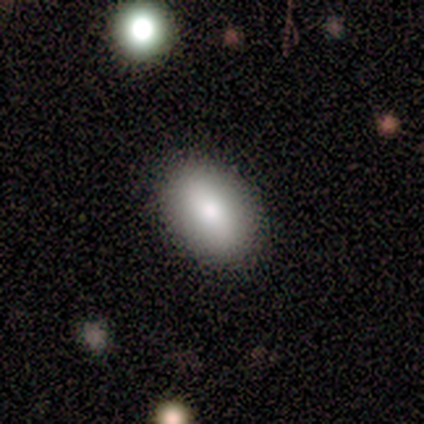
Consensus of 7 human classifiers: smooth 100%, featured or disk 0%, star or artifact 0%. Down the decision tree: how rounded — in between (100%); merging — none (86%).